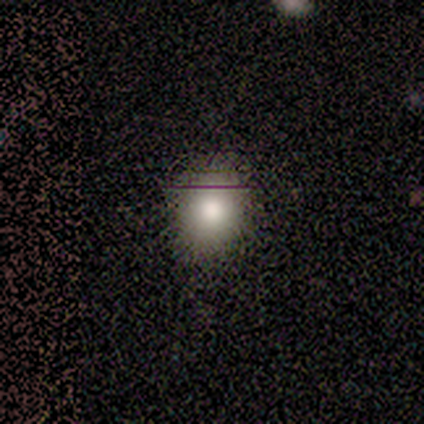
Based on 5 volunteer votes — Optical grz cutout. It shows a smooth galaxy with no disk features (100%) that is round (60%). Merging: none (60%).